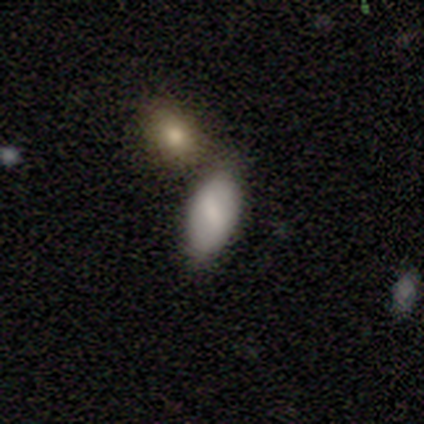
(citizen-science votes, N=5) A smooth galaxy with no disk features (80%) that is in between round and cigar-shaped (100%). Merging: none (75%).